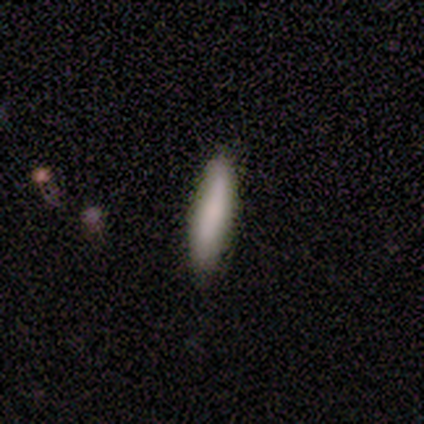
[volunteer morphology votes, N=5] Smooth or featured? smooth (100%)
How rounded? cigar-shaped (60%)
Merging? none (80%)